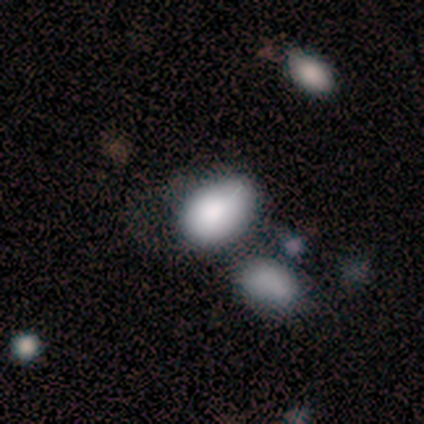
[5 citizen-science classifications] Morphology: type=smooth (100%); roundness=in between (100%); merging=minor disturbance (40%, tied with merger).